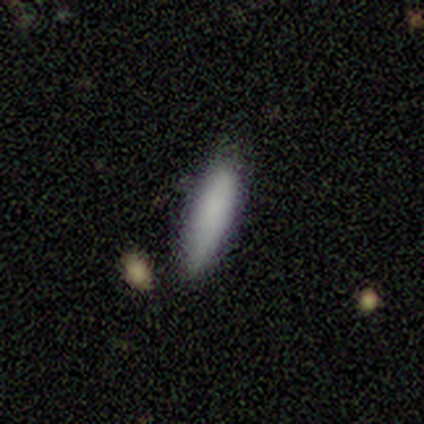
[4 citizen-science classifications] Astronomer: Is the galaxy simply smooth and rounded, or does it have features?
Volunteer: smooth — 100%.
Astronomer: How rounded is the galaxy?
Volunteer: in between — 50%, tied with cigar-shaped at 50%.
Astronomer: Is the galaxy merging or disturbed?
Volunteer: none — 50%.